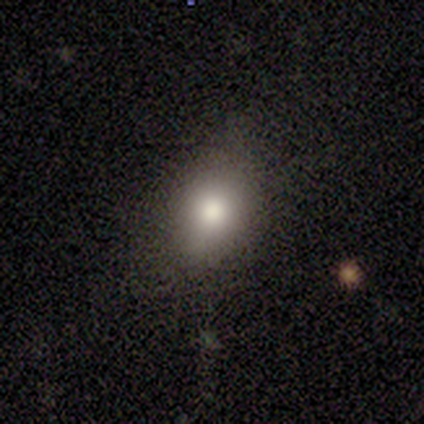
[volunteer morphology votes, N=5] Q: Smooth or featured?
A: smooth (100%)
Q: How rounded?
A: in between (60%); runner-up: round (40%)
Q: Merging?
A: none (80%); runner-up: minor disturbance (20%)